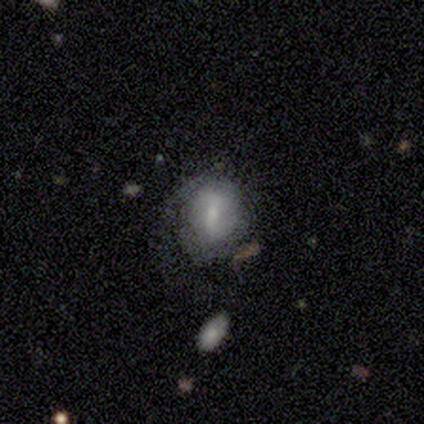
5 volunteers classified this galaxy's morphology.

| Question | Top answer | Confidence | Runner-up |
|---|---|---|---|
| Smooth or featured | featured or disk | 80% | smooth (20%) |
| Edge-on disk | no | 100% | — |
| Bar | weak | 50% | strong (25%) |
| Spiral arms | yes | 50% | tied: no (50%) |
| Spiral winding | medium | 50% | tied: loose (50%) |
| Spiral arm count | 2 | 100% | — |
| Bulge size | none | 50% | moderate (25%) |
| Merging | none | 40% | tied: minor disturbance (40%) |